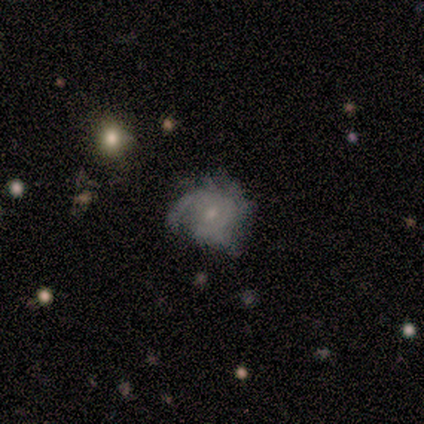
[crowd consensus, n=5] Q: Smooth or featured?
A: smooth (60%); runner-up: featured or disk (40%)
Q: How rounded?
A: round (67%); runner-up: in between (33%)
Q: Merging?
A: major disturbance (60%); runner-up: none (40%)